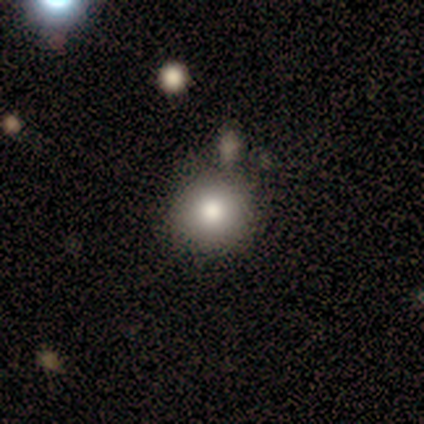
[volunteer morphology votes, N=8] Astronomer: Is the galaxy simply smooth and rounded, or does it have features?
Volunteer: smooth — 88%.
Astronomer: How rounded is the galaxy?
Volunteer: round — 100%.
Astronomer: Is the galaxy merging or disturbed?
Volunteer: none — 100%.